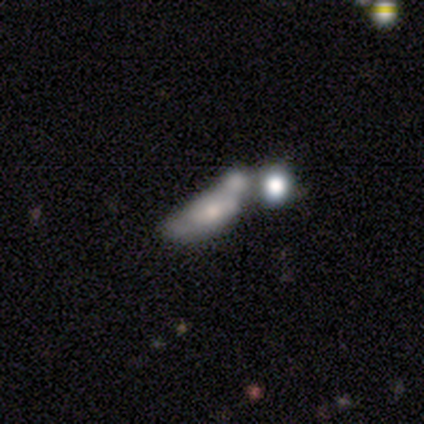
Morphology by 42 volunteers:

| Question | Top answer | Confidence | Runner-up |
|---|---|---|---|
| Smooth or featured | featured or disk | 50% | smooth (43%) |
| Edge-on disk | no | 90% | yes (10%) |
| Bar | no | 74% | strong (16%) |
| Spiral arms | no | 79% | yes (21%) |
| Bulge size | moderate | 47% | small (37%) |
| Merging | merger | 62% | minor disturbance (18%) |